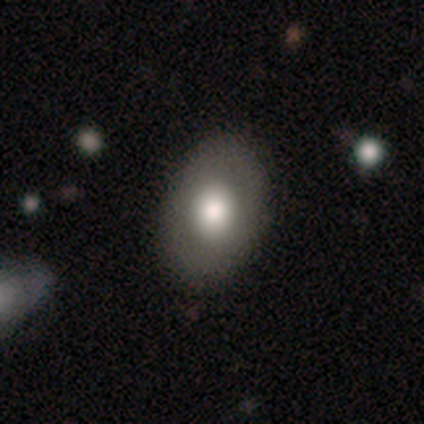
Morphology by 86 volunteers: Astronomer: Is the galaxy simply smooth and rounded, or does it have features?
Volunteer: smooth — 71%.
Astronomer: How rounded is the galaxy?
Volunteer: in between — 79%.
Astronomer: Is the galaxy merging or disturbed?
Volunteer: none — 83%.